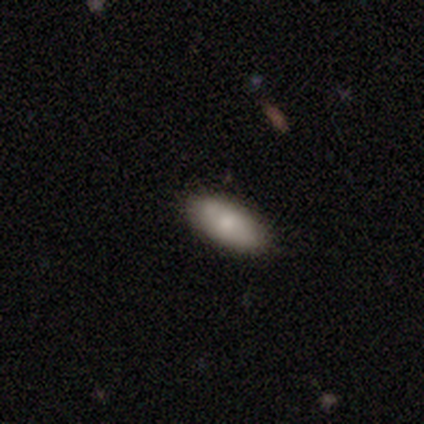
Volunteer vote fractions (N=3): smooth-or-featured: smooth: 33% (tied) | featured or disk: 33% (tied) | star or artifact: 33% (tied)
  how-rounded: in between: 100% | round: 0% | cigar-shaped: 0%
  merging: none: 100% | minor disturbance: 0% | major disturbance: 0% | merger: 0%